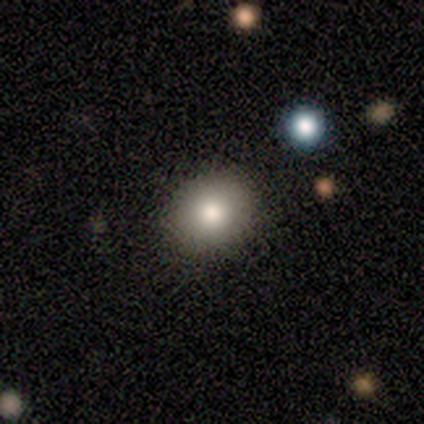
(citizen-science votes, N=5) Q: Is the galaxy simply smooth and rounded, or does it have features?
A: smooth — 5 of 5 (100%).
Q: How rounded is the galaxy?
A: round — 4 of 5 (80%).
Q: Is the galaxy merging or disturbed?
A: none — 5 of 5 (100%).